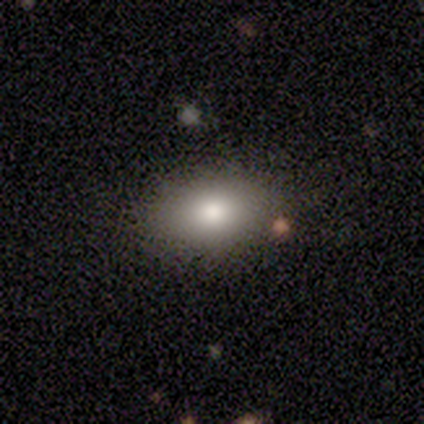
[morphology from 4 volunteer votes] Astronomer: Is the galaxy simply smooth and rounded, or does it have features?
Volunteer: smooth — 100%.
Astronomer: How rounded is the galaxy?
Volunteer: in between — 100%.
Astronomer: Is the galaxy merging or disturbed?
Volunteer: none — 50%.